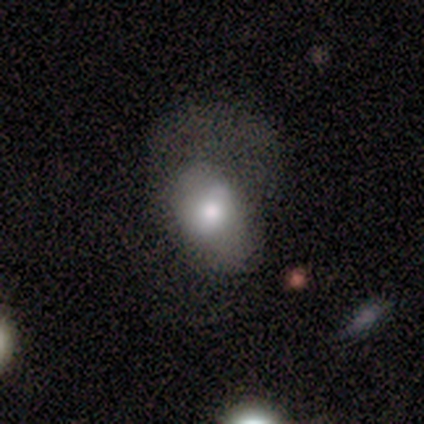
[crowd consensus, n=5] Q: Smooth or featured?
A: smooth (80%); runner-up: featured or disk (20%)
Q: How rounded?
A: in between (75%); runner-up: cigar-shaped (25%)
Q: Merging?
A: major disturbance (60%); runner-up: none (20%)